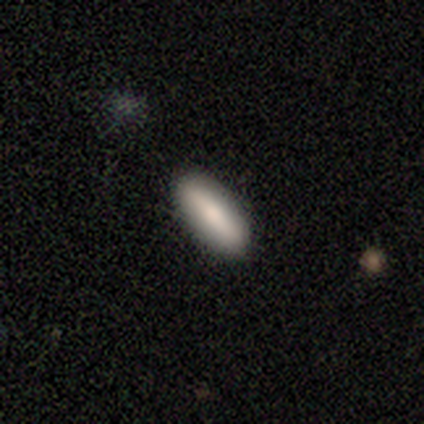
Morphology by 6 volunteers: smooth_or_featured: smooth (p=1.00)
how_rounded: in between (p=0.67) [alt: cigar-shaped p=0.33]
merging: none (p=0.83) [alt: minor disturbance p=0.17]